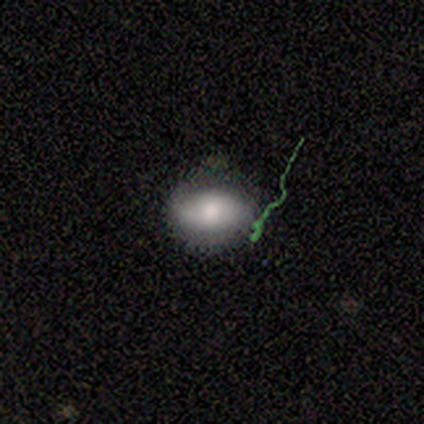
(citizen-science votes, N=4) A featured or disk galaxy (75%) with a weak bar (50%, tied with no), 1 (100%) loose (100%) spiral arms (50%, tied with no) and a moderate central bulge (100%).

Vote fractions:
- Smooth or featured? featured or disk: 75% / smooth: 25% / star or artifact: 0%
- Edge-on disk? no: 67% / yes: 33%
- Bar? weak: 50% (tied) / no: 50% (tied) / strong: 0%
- Spiral arms? yes: 50% (tied) / no: 50% (tied)
- Spiral winding? loose: 100% / tight: 0% / medium: 0%
- Spiral arm count? 1: 100% / 2: 0% / 3: 0% / 4: 0% / more than 4: 0% / can't tell: 0%
- Bulge size? moderate: 100% / dominant: 0% / large: 0% / small: 0% / none: 0%
- Merging? none: 50% (tied) / major disturbance: 50% (tied) / minor disturbance: 0% / merger: 0%